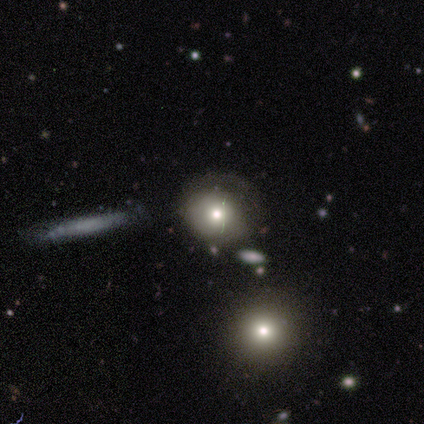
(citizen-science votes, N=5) A smooth galaxy with no disk features (80%) that is in between round and cigar-shaped (75%).

Vote fractions:
- Smooth or featured? smooth: 80% / star or artifact: 20% / featured or disk: 0%
- How rounded? in between: 75% / round: 25% / cigar-shaped: 0%
- Merging? minor disturbance: 50% / major disturbance: 25% / merger: 25% / none: 0%